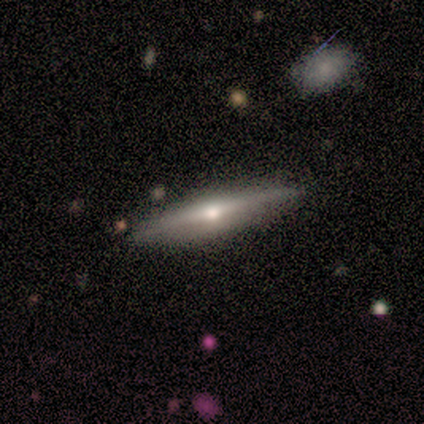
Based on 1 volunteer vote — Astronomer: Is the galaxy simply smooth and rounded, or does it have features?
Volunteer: featured or disk — 100%.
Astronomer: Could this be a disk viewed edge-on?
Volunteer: yes — 100%.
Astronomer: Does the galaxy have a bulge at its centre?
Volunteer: rounded — 100%.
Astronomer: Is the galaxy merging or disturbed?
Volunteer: none — 100%.